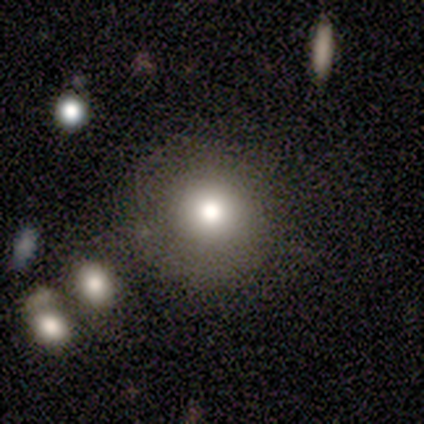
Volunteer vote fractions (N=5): Morphology: type=smooth (100%); roundness=round (80%); merging=none (100%).